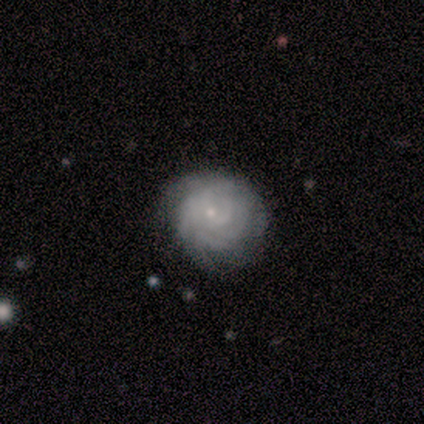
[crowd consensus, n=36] This appears to be a featured or disk galaxy (92%) with no bar (88%), tight (94%) spiral arms (94%) and a small central bulge (88%). Merging: none (66%).